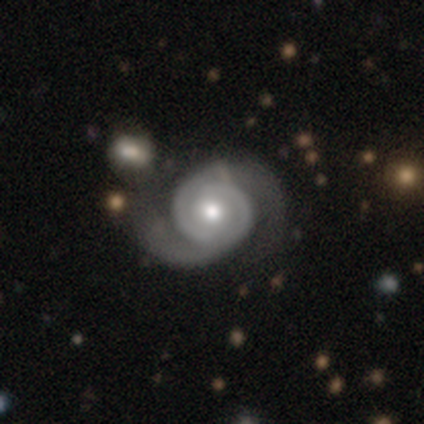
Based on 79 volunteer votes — This appears to be a featured or disk galaxy (95%) with no bar (79%), 2 (99%) tight (52%) spiral arms (100%) and a moderate central bulge (64%). Merging: none (33%).